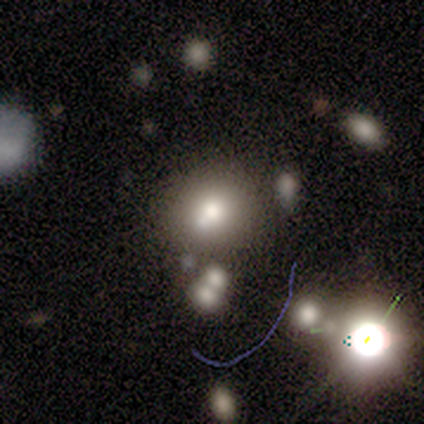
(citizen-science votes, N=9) Smooth or featured: smooth — 78% (featured or disk — 11%)
How rounded: round — 100%
Merging: none — 50% (tied with merger — 50%)